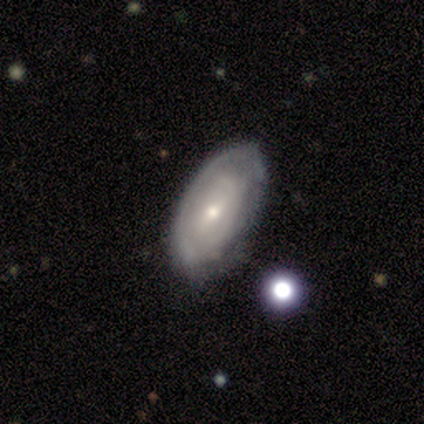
This is possibly a smooth galaxy (50%). How rounded: clearly in between (100%). Merging: likely none (67%).